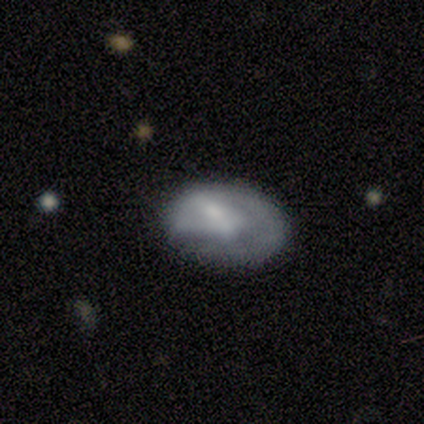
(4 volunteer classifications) A featured or disk galaxy (50%) viewed edge-on (50%, tied with no) with no central bulge (100%).

Vote fractions:
- Smooth or featured? featured or disk: 50% / smooth: 25% / star or artifact: 25%
- Edge-on disk? yes: 50% (tied) / no: 50% (tied)
- Edge-on bulge? none: 100% / boxy: 0% / rounded: 0%
- Merging? none: 100% / minor disturbance: 0% / major disturbance: 0% / merger: 0%